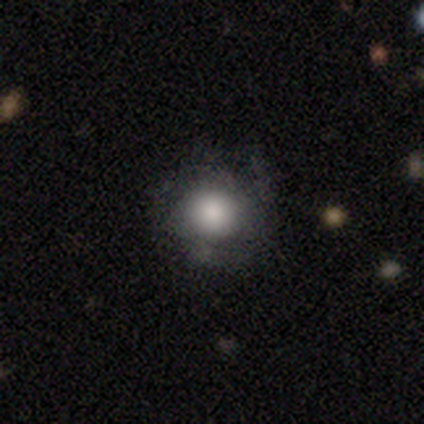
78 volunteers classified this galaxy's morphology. Q: Smooth or featured?
A: smooth (67%); runner-up: featured or disk (31%)
Q: How rounded?
A: round (92%); runner-up: in between (8%)
Q: Merging?
A: none (38%); runner-up: minor disturbance (16%)